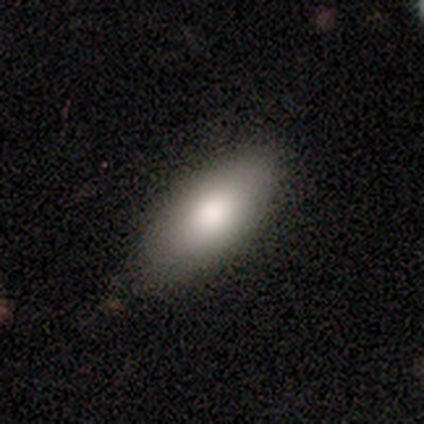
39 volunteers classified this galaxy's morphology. Q: Smooth or featured?
A: smooth (82%); runner-up: featured or disk (13%)
Q: How rounded?
A: in between (91%); runner-up: cigar-shaped (6%)
Q: Merging?
A: none (78%); runner-up: minor disturbance (14%)